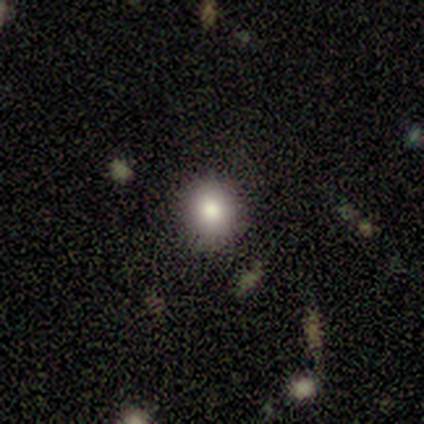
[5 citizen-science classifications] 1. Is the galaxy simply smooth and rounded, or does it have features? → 60% smooth, 40% featured or disk, 0% star or artifact.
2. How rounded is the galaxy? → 100% round, 0% in between, 0% cigar-shaped.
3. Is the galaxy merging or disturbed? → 80% none, 20% minor disturbance, 0% major disturbance, 0% merger.